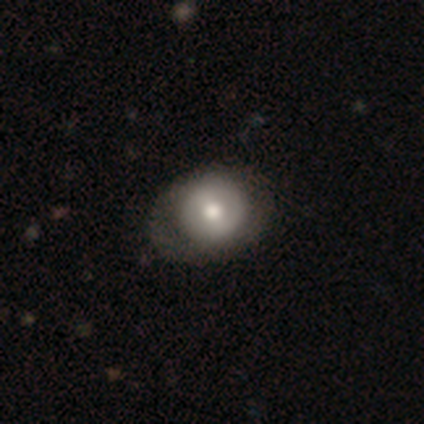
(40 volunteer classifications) Volunteers were most divided on "smooth or featured": featured or disk: 57%, smooth: 40%, star or artifact: 2%. More confident: edge-on disk — no (100%); spiral arms — no (74%); bulge size — moderate (74%); bar — no (70%); merging — none (67%).